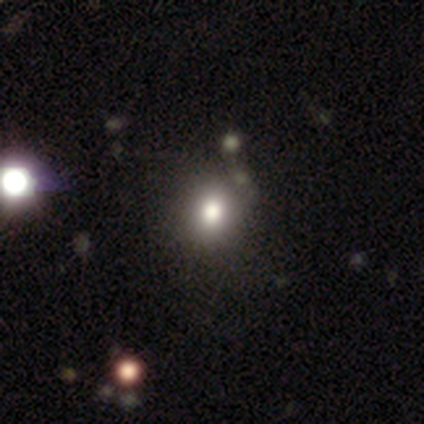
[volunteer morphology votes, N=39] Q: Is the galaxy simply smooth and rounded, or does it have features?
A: smooth — 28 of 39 (72%).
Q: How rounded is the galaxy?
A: round — 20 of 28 (71%).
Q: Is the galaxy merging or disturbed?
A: none — 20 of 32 (62%).